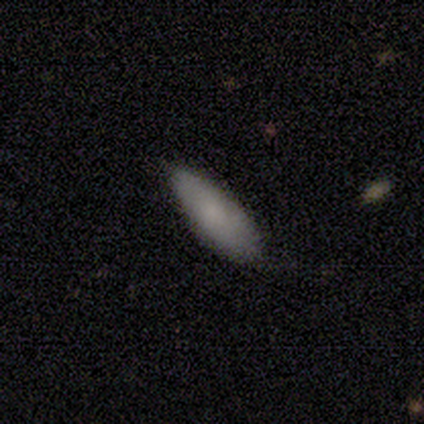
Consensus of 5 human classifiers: A smooth galaxy with no disk features (60%) that is cigar-shaped (67%). Merging: none (60%).